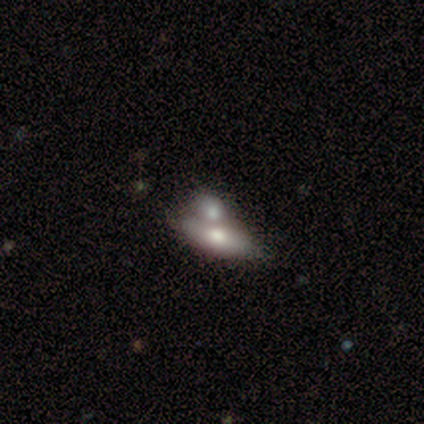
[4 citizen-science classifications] Smooth or featured?
  - smooth: 50% * (tied)
  - featured or disk: 50% * (tied)
  - star or artifact: 0%
How rounded?
  - in between: 100% *
  - round: 0%
  - cigar-shaped: 0%
Merging?
  - merger: 50% *
  - none: 25%
  - minor disturbance: 25%
  - major disturbance: 0%